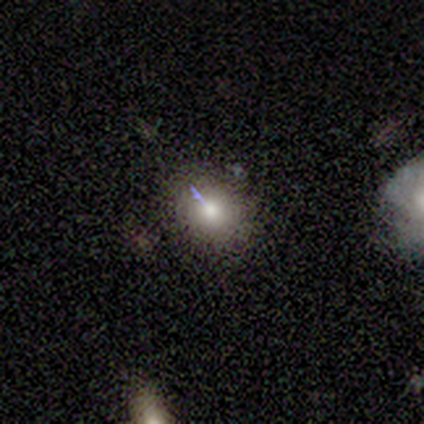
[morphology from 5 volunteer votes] This is likely a smooth galaxy (60%). How rounded: likely round (67%). Merging: likely none (75%).